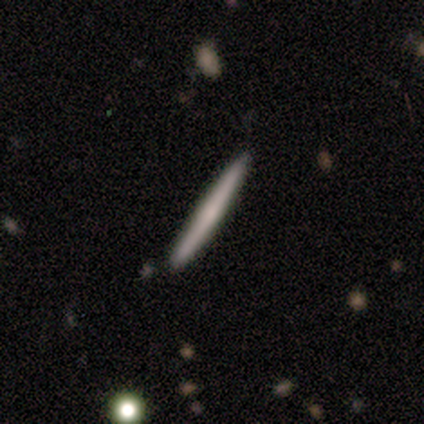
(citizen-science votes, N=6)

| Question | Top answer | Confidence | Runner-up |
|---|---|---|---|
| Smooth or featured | smooth | 67% | featured or disk (33%) |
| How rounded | cigar-shaped | 100% | — |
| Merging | none | 100% | — |